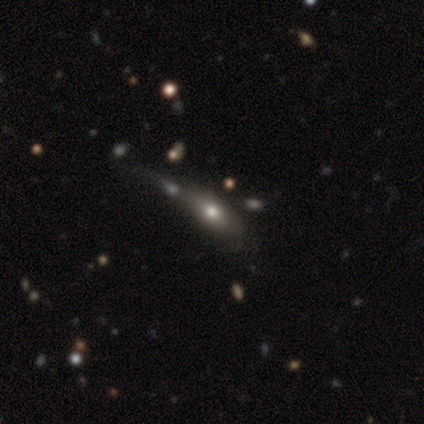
smooth_or_featured: smooth (p=0.54) [alt: featured or disk p=0.41]
how_rounded: in between (p=0.85) [alt: cigar-shaped p=0.10]
merging: minor disturbance (p=0.46) [alt: none p=0.17]